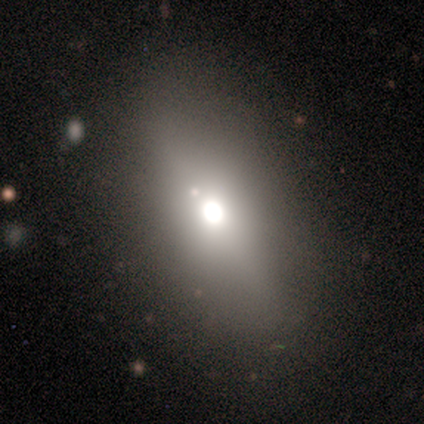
smooth-or-featured: smooth: 60% | featured or disk: 40% | star or artifact: 0%
  how-rounded: in between: 100% | round: 0% | cigar-shaped: 0%
  merging: none: 100% | minor disturbance: 0% | major disturbance: 0% | merger: 0%